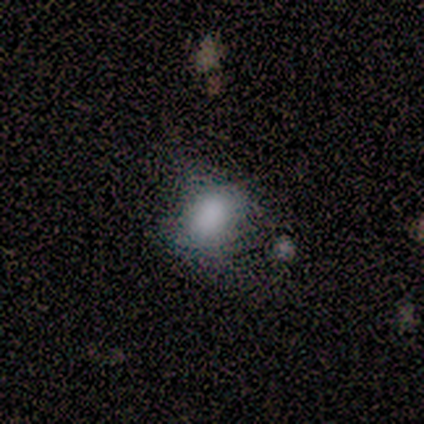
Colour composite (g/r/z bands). It shows a smooth galaxy with no disk features (83%) that is in between round and cigar-shaped (80%). Merging: minor disturbance (40%, tied with major disturbance).